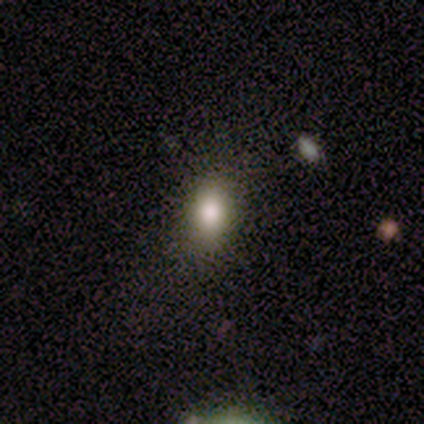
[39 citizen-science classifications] smooth 74%, star or artifact 21%, featured or disk 5%. Down the decision tree: how rounded — in between (90%); merging — none (74%).